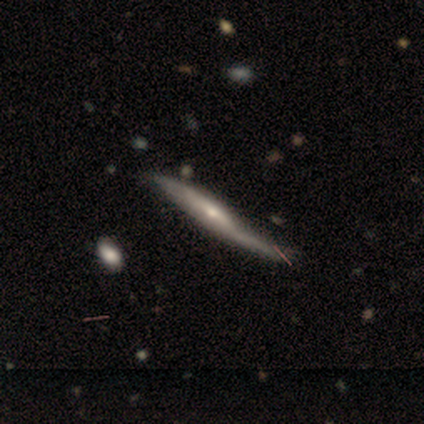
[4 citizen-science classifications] Smooth or featured? smooth (50%, tied with featured or disk)
How rounded? cigar-shaped (100%)
Merging? none (50%)